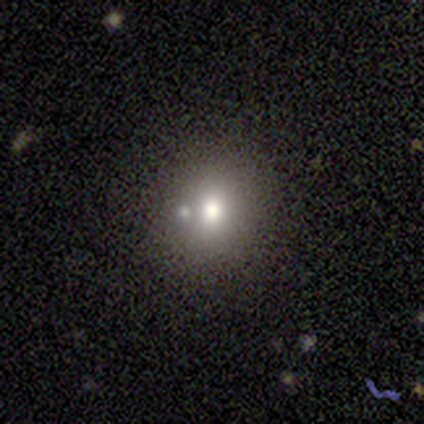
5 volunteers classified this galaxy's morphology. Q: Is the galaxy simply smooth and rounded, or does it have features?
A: smooth — 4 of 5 (80%).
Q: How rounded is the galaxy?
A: round — 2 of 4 (50%, tied with in between).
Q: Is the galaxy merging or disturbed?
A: none — 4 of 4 (100%).